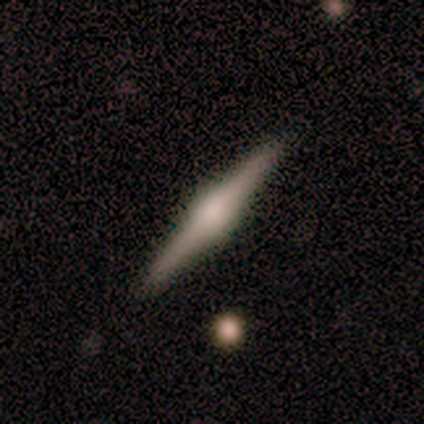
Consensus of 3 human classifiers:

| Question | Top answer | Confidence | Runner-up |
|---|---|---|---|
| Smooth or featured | featured or disk | 67% | smooth (33%) |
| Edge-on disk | yes | 100% | — |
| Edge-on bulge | rounded | 100% | — |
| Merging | none | 100% | — |